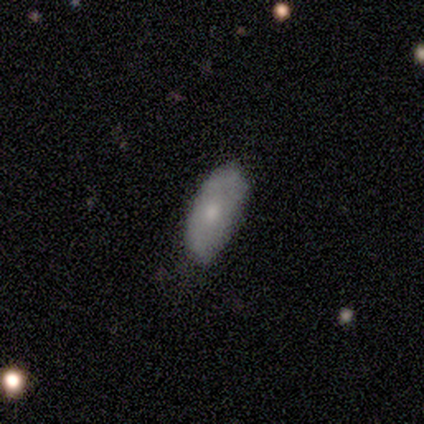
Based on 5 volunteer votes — A smooth galaxy with no disk features (80%) that is in between round and cigar-shaped (100%). Merging: none (60%).